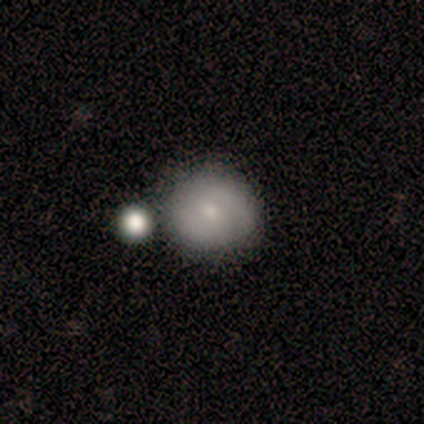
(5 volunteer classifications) A smooth galaxy with no disk features (80%) that is round (100%).

Vote fractions:
- Smooth or featured? smooth: 80% / featured or disk: 20% / star or artifact: 0%
- How rounded? round: 100% / in between: 0% / cigar-shaped: 0%
- Merging? none: 60% / minor disturbance: 20% / merger: 20% / major disturbance: 0%